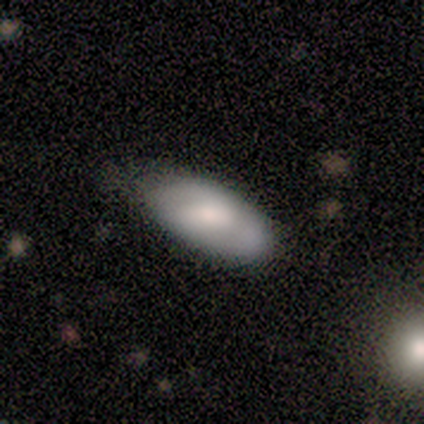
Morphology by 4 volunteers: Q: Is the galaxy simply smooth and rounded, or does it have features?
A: smooth — 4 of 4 (100%).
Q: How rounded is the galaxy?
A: in between — 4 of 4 (100%).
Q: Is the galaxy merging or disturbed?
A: none — 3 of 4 (75%).